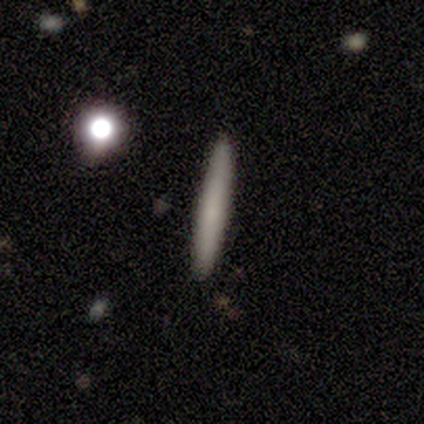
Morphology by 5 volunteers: This appears to be a smooth galaxy with no disk features (60%) that is cigar-shaped (100%). Merging: none (75%).